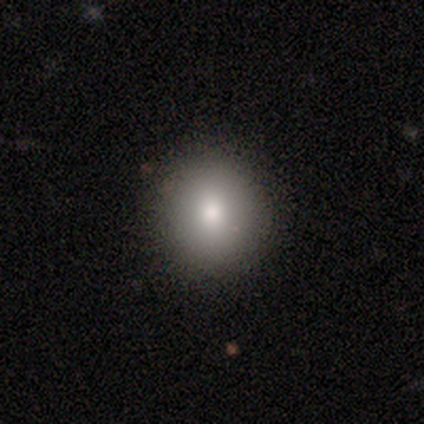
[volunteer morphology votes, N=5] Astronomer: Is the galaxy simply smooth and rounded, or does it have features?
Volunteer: smooth — 100%.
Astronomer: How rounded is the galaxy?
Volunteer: round — 100%.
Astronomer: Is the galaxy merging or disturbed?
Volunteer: none — 100%.